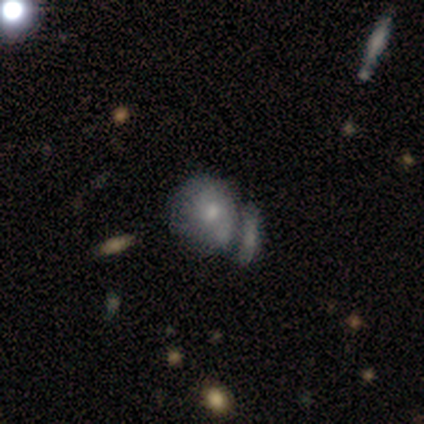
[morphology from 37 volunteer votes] type=smooth (65%); roundness=in between (62%); merging=merger (46%).